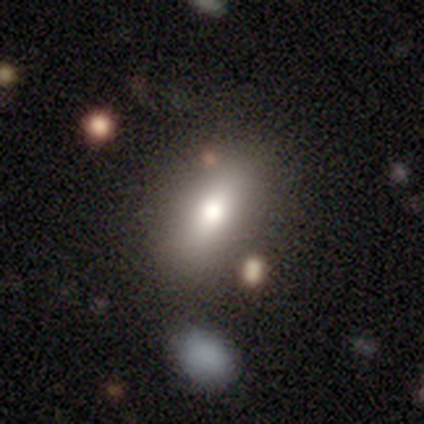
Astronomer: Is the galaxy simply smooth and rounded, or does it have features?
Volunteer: smooth — 74%.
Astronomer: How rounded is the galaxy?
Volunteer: in between — 70%.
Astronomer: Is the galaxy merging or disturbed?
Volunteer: none — 75%.